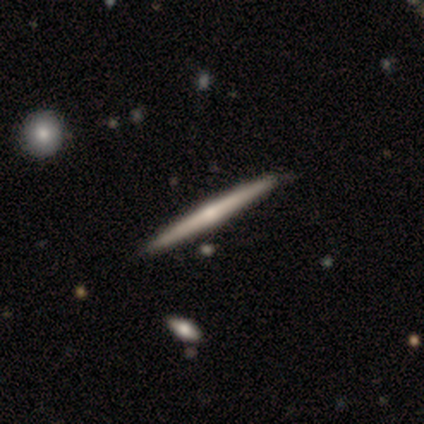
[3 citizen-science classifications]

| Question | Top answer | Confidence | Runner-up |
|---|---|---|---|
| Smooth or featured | featured or disk | 67% | smooth (33%) |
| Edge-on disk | yes | 100% | — |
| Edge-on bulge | none | 50% | tied: rounded (50%) |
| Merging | none | 33% | tied: minor disturbance (33%), merger (33%) |